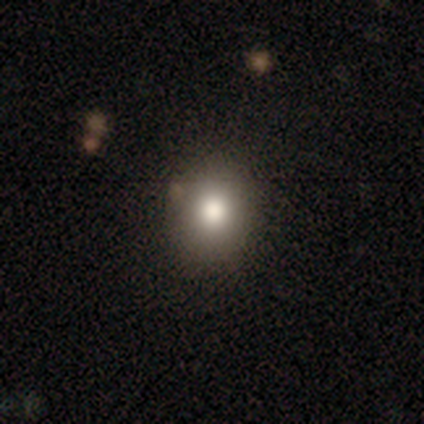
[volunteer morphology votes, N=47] This appears to be a smooth galaxy with no disk features (91%) that is round (77%). Merging: none (88%).